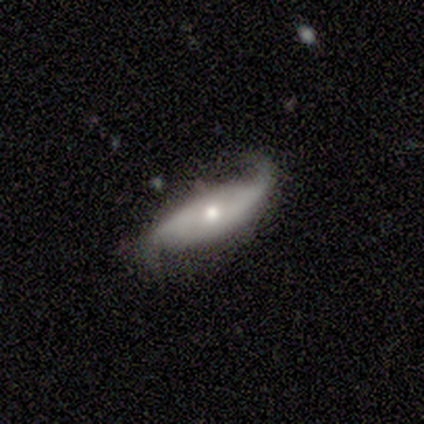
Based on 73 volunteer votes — Overall: featured or disk (82%). Edge-on disk: no (80%). Bar: no (54%; strong 33%). Spiral arms: yes (92%). Spiral arm count: 2 (91%). Spiral winding: loose (82%). Bulge size: moderate (60%; small 33%). Merging: none (49%; minor disturbance 33%).